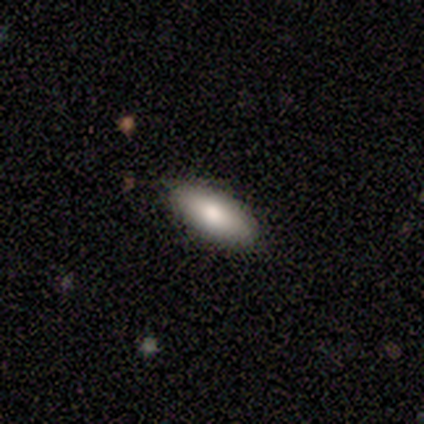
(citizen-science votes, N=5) This is clearly a smooth galaxy (100%). How rounded: clearly in between (80%). Merging: clearly none (80%).